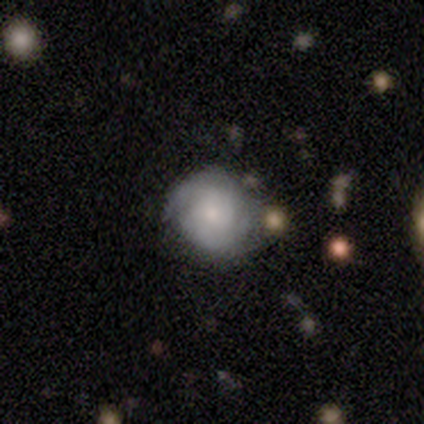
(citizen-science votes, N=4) Volunteers were most divided on "spiral winding": medium: 67%, tight: 33%, loose: 0%. More confident: edge-on disk — no (100%); bar — no (100%); spiral arms — yes (100%); smooth or featured — featured or disk (75%); spiral arm count — 2 (67%); bulge size — large (67%); merging — none (67%).